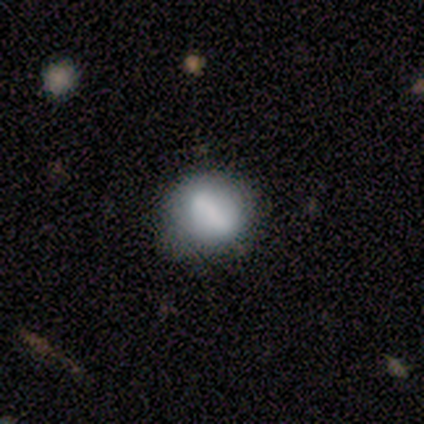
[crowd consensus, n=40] Morphology: type=smooth (70%); roundness=round (68%); merging=none (49%).